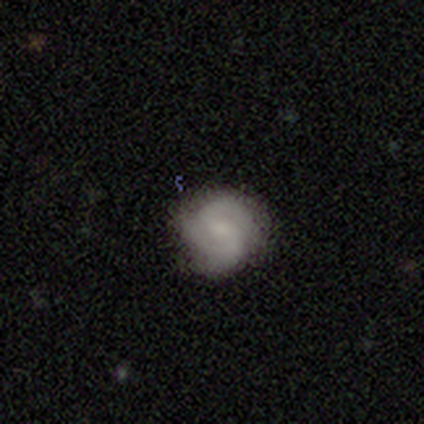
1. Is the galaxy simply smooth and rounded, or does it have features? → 60% featured or disk, 40% smooth, 0% star or artifact.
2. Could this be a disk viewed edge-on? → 100% no, 0% yes.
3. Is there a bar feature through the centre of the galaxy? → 67% no, 33% weak, 0% strong.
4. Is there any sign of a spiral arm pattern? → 100% yes, 0% no.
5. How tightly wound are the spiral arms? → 67% tight, 33% medium, 0% loose.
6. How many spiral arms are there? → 67% 2, 33% 3, 0% 1, 0% 4, 0% more than 4, 0% can't tell.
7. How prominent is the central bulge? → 67% small, 33% none, 0% dominant, 0% large, 0% moderate.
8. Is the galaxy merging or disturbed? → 100% none, 0% minor disturbance, 0% major disturbance, 0% merger.